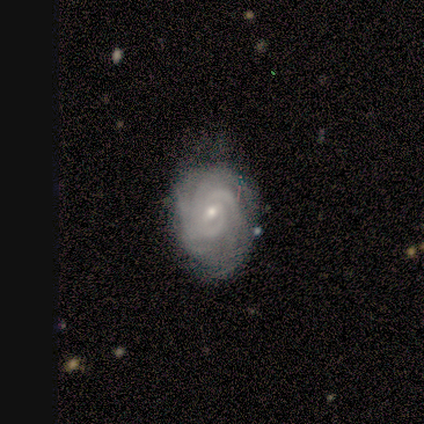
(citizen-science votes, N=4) Smooth or featured? 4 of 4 (100%) said featured or disk. Edge-on disk? 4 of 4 (100%) said no. Bar? 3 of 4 (75%) said no. Spiral arms? 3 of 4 (75%) said yes. Spiral winding? 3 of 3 (100%) said tight. Spiral arm count? 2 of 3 (67%) said can't tell. Bulge size? 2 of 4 (50%, tied with small) said moderate. Merging? 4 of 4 (100%) said none.